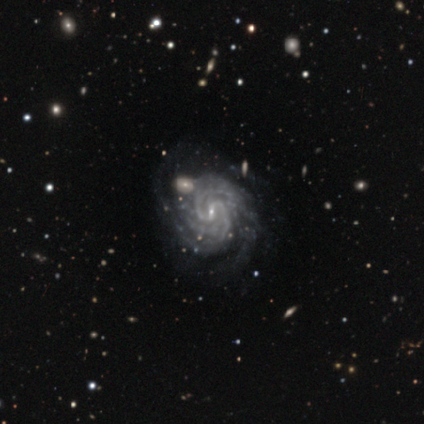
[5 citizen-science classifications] Smooth or featured? featured or disk (100%)
Edge-on disk? no (100%)
Bar? weak (80%)
Spiral arms? yes (100%)
Spiral winding? tight (80%)
Spiral arm count? 2 (40%, tied with 4)
Bulge size? small (100%)
Merging? none (100%)